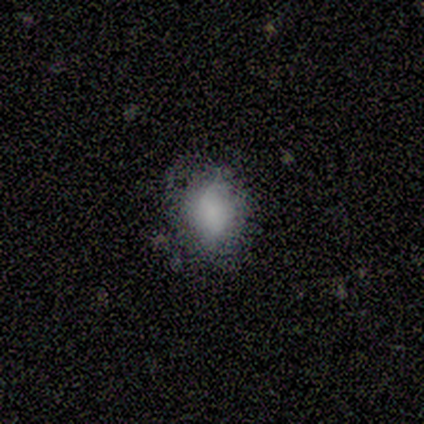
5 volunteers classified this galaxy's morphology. This is likely a smooth galaxy (60%). How rounded: clearly in between (100%). Merging: clearly none (80%).